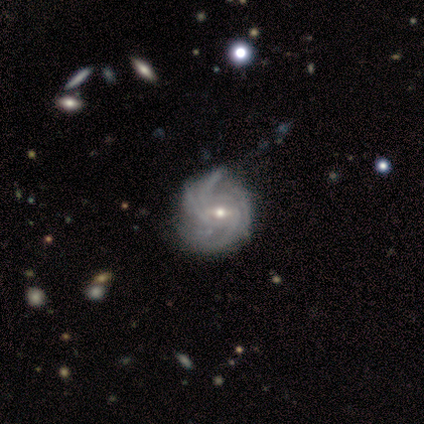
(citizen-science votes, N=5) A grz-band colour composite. It shows a featured or disk galaxy (100%) with a weak bar (75%), tight (100%) spiral arms (100%) and a moderate central bulge (50%, tied with small). Merging: none (60%).